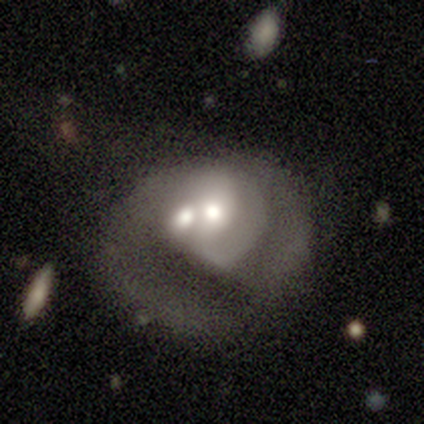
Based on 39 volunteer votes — Smooth or featured? 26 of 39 (67%) said featured or disk. Edge-on disk? 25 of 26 (96%) said no. Bar? 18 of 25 (72%) said no. Spiral arms? 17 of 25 (68%) said yes. Spiral winding? 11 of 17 (65%) said medium. Spiral arm count? 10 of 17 (59%) said 2. Bulge size? 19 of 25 (76%) said moderate. Merging? 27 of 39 (69%) said merger.